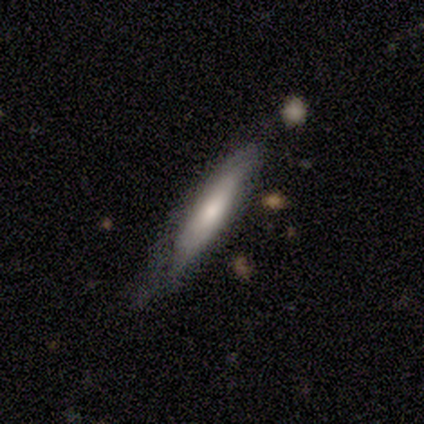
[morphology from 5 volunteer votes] Volunteers were most divided on "smooth or featured": smooth: 60%, featured or disk: 40%, star or artifact: 0%. More confident: how rounded — cigar-shaped (100%); merging — none (60%).